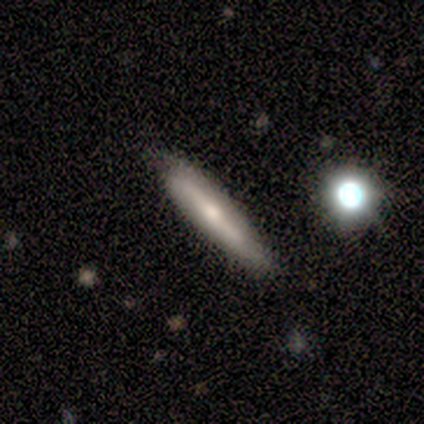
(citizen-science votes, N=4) Smooth or featured? 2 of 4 (50%, tied with featured or disk) said smooth. How rounded? 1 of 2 (50%, tied with cigar-shaped) said in between. Merging? 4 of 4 (100%) said none.